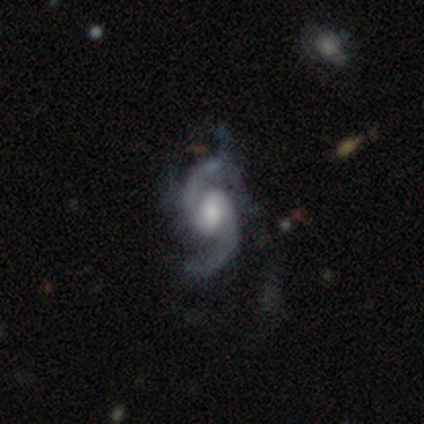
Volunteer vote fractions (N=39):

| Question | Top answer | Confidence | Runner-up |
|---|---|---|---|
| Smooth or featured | featured or disk | 97% | star or artifact (3%) |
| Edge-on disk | no | 100% | — |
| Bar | no | 45% | weak (34%) |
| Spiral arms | yes | 100% | — |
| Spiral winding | medium | 58% | loose (34%) |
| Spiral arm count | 2 | 97% | 3 (3%) |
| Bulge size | moderate | 47% | large (29%) |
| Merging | none | 26% | major disturbance (24%) |